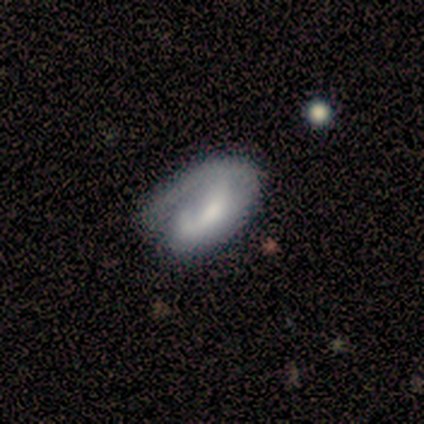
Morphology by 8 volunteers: Volunteers were most divided on "merging": minor disturbance: 62%, major disturbance: 25%, none: 12%, merger: 0%. More confident: how rounded — in between (100%); smooth or featured — smooth (75%).